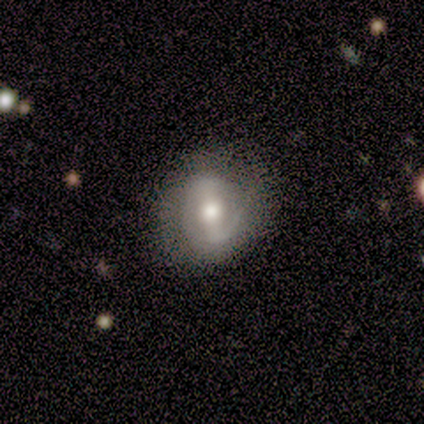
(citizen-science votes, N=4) Q: Smooth or featured?
A: featured or disk (75%); runner-up: smooth (25%)
Q: Edge-on disk?
A: no (100%)
Q: Bar?
A: strong (100%)
Q: Spiral arms?
A: yes (67%); runner-up: no (33%)
Q: Spiral winding?
A: tight (50%); tied with: loose (50%)
Q: Spiral arm count?
A: 2 (50%); tied with: can't tell (50%)
Q: Bulge size?
A: moderate (67%); runner-up: small (33%)
Q: Merging?
A: none (100%)